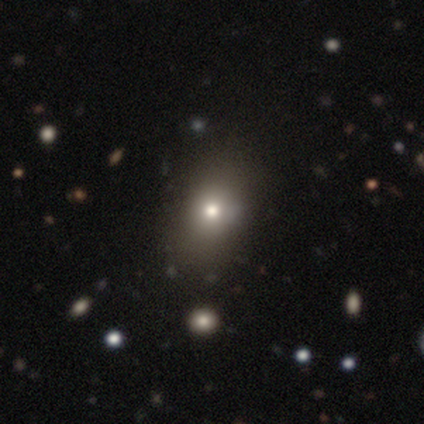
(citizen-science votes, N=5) smooth-or-featured: smooth: 80% | star or artifact: 20% | featured or disk: 0%
  how-rounded: in between: 75% | round: 25% | cigar-shaped: 0%
  merging: none: 75% | minor disturbance: 25% | major disturbance: 0% | merger: 0%